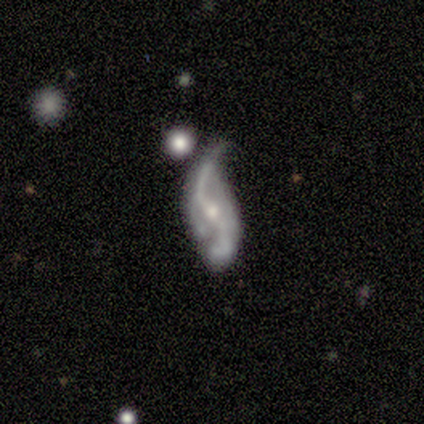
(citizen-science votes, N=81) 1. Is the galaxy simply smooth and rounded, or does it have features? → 78% featured or disk, 15% smooth, 7% star or artifact.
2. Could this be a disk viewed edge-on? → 97% no, 3% yes.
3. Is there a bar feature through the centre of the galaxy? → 43% no, 31% weak, 26% strong.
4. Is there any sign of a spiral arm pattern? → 95% yes, 5% no.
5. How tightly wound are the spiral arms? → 90% loose, 7% medium, 3% tight.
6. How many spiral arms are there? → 88% 2, 7% 1, 3% can't tell, 2% 3, 0% 4, 0% more than 4.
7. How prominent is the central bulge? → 62% moderate, 33% small, 3% large, 2% none, 0% dominant.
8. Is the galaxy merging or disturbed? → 44% minor disturbance, 21% major disturbance, 20% none, 15% merger.